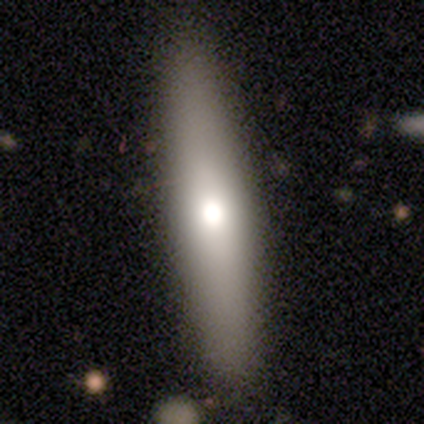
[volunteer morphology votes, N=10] Overall: featured or disk (70%; smooth 30%). Edge-on disk: yes (86%). Edge-on bulge: rounded (83%). Merging: none (70%; minor disturbance 30%).